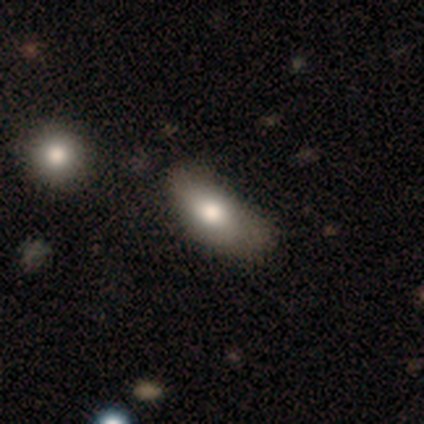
This is likely a smooth galaxy (77%). How rounded: clearly in between (96%). Merging: marginally minor disturbance (29%).